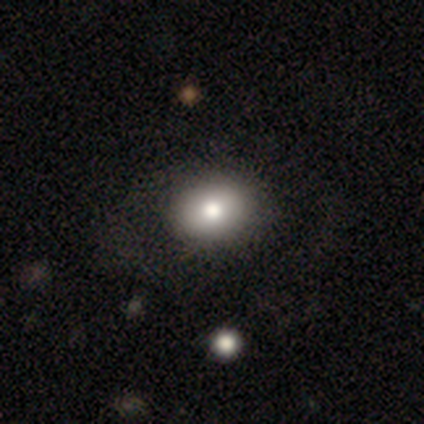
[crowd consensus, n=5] Volunteers were most divided on "merging": none: 60%, minor disturbance: 20%, major disturbance: 20%, merger: 0%. More confident: how rounded — in between (100%); smooth or featured — smooth (80%).